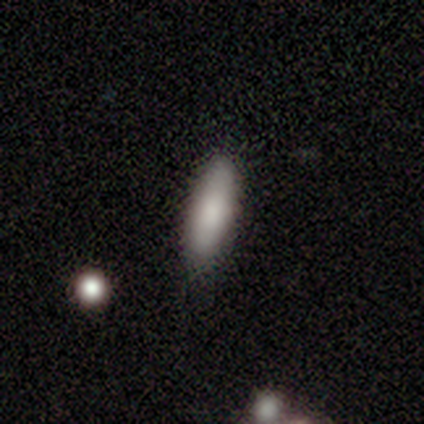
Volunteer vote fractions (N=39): Smooth or featured?
  - smooth: 85% *
  - featured or disk: 10%
  - star or artifact: 5%
How rounded?
  - in between: 52% *
  - cigar-shaped: 45%
  - round: 3%
Merging?
  - none: 86% *
  - minor disturbance: 11%
  - major disturbance: 3%
  - merger: 0%